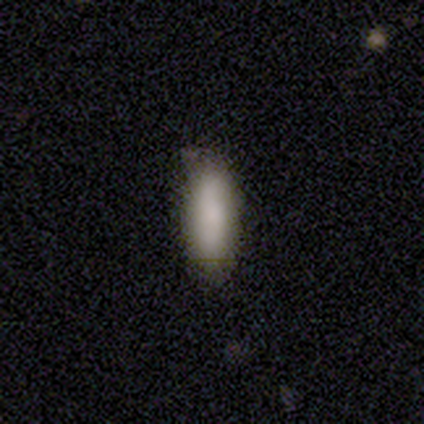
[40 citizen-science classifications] Smooth or featured? 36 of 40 (90%) said smooth. How rounded? 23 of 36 (64%) said in between. Merging? 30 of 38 (79%) said none.